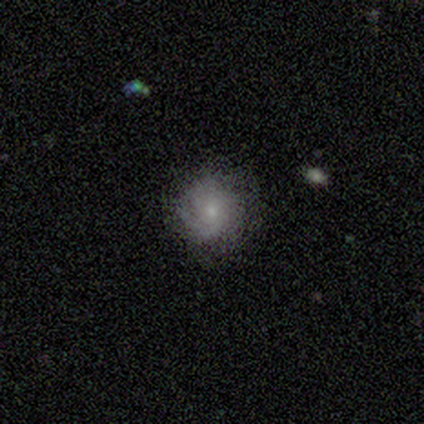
Smooth or featured?
  - featured or disk: 57% *
  - smooth: 40%
  - star or artifact: 4%
Edge-on disk?
  - no: 100% *
  - yes: 0%
Bar?
  - no: 70% *
  - weak: 30%
  - strong: 0%
Spiral arms?
  - yes: 90% *
  - no: 10%
Spiral winding?
  - tight: 63% *
  - medium: 30%
  - loose: 7%
Spiral arm count?
  - can't tell: 41% *
  - 3: 26%
  - 2: 15%
  - 1: 7%
  - more than 4: 7%
  - 4: 4%
Bulge size?
  - small: 70% *
  - moderate: 27%
  - none: 3%
  - dominant: 0%
  - large: 0%
Merging?
  - none: 80% *
  - minor disturbance: 18%
  - major disturbance: 2%
  - merger: 0%